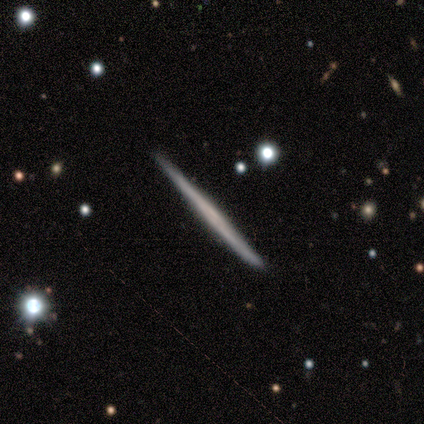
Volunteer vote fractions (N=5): smooth-or-featured: featured or disk: 100% | smooth: 0% | star or artifact: 0%
  disk-edge-on: yes: 100% | no: 0%
    edge-on-bulge: none: 80% | rounded: 20% | boxy: 0%
  merging: none: 100% | minor disturbance: 0% | major disturbance: 0% | merger: 0%